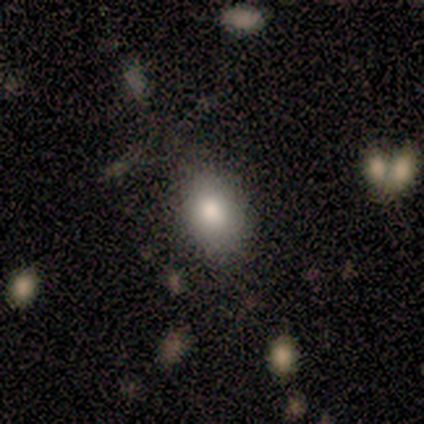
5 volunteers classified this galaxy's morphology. smooth 100%, featured or disk 0%, star or artifact 0%. Down the decision tree: how rounded — in between (60%); merging — none (60%).